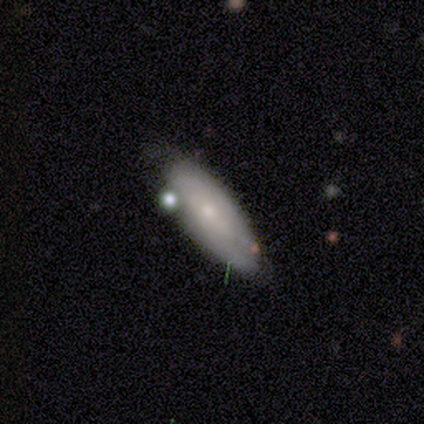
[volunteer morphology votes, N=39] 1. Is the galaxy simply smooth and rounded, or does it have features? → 51% smooth, 41% featured or disk, 8% star or artifact.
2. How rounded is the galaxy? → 60% in between, 35% cigar-shaped, 5% round.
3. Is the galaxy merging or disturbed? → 61% none, 22% minor disturbance, 8% major disturbance, 8% merger.